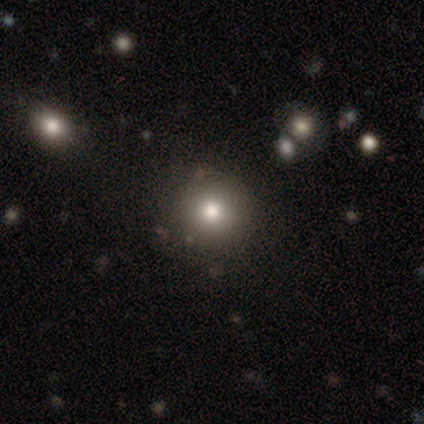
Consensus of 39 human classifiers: smooth-or-featured: smooth: 62% | star or artifact: 26% | featured or disk: 13%
  how-rounded: round: 83% | in between: 12% | cigar-shaped: 4%
  merging: none: 83% | minor disturbance: 10% | major disturbance: 3% | merger: 3%